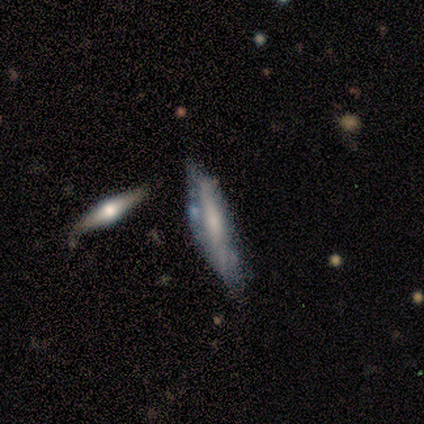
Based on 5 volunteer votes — Q: Smooth or featured?
A: featured or disk (60%); runner-up: smooth (40%)
Q: Edge-on disk?
A: yes (67%); runner-up: no (33%)
Q: Edge-on bulge?
A: rounded (100%)
Q: Merging?
A: minor disturbance (60%); runner-up: none (40%)